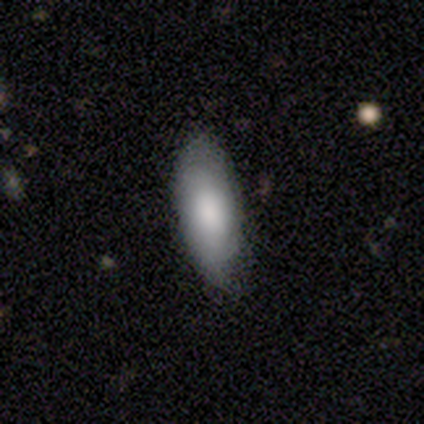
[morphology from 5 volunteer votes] Smooth or featured? 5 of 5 (100%) said smooth. How rounded? 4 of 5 (80%) said in between. Merging? 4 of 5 (80%) said none.